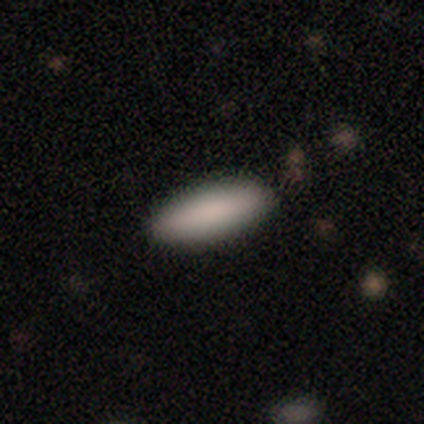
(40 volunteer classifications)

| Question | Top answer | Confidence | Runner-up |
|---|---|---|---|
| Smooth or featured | smooth | 85% | featured or disk (8%) |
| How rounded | in between | 53% | cigar-shaped (47%) |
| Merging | none | 92% | minor disturbance (8%) |